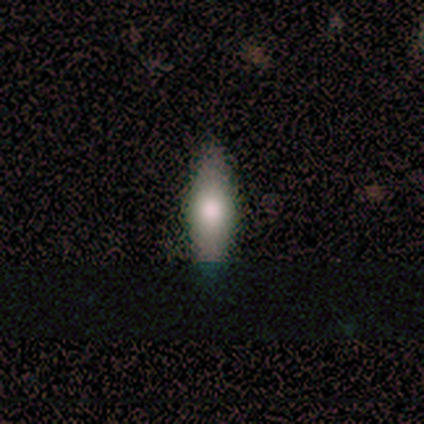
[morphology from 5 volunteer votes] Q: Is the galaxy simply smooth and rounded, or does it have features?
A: smooth — 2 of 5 (40%, tied with star or artifact).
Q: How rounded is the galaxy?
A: cigar-shaped — 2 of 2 (100%).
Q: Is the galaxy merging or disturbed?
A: none — 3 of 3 (100%).